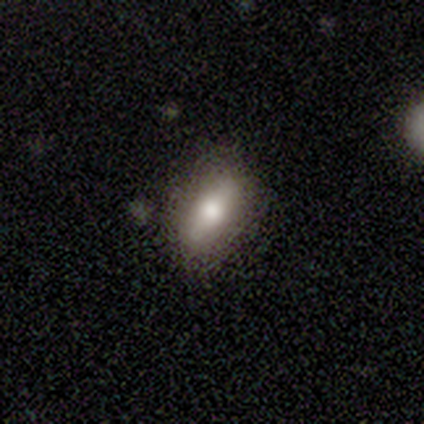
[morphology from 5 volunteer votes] Overall: smooth (80%). How rounded: in between (100%). Merging: none (100%).